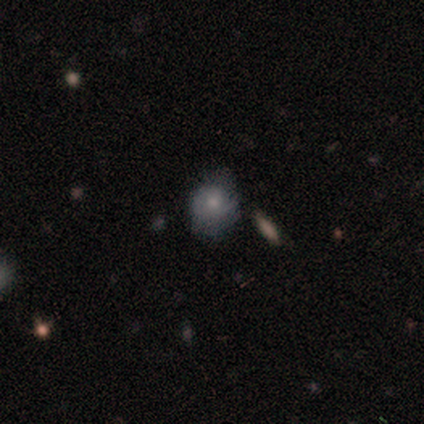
Smooth or featured? 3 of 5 (60%) said smooth. How rounded? 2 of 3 (67%) said round. Merging? 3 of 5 (60%) said none.